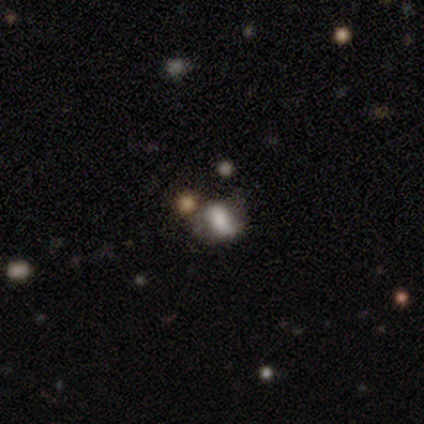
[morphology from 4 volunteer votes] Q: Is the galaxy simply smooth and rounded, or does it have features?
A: smooth — 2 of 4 (50%).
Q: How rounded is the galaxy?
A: in between — 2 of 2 (100%).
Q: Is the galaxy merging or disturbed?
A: none — 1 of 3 (33%, tied with minor disturbance and merger).